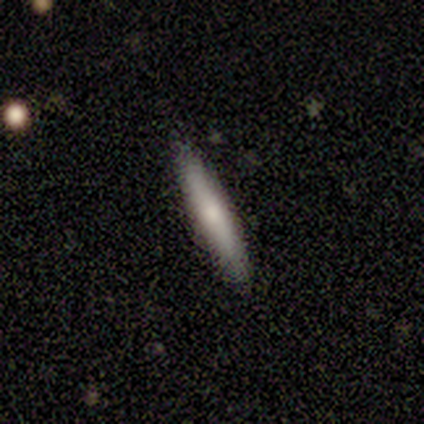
Smooth or featured? smooth (50%, tied with featured or disk)
How rounded? cigar-shaped (100%)
Merging? none (88%)